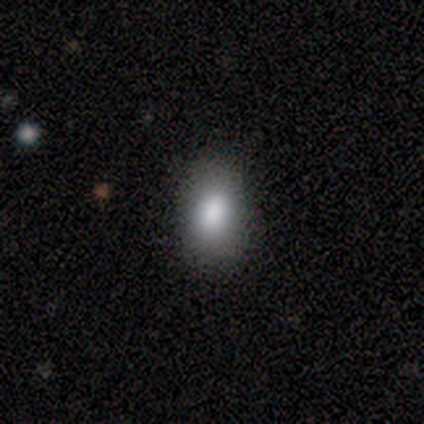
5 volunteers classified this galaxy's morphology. A smooth galaxy with no disk features (100%) that is in between round and cigar-shaped (100%). Merging: none (80%).